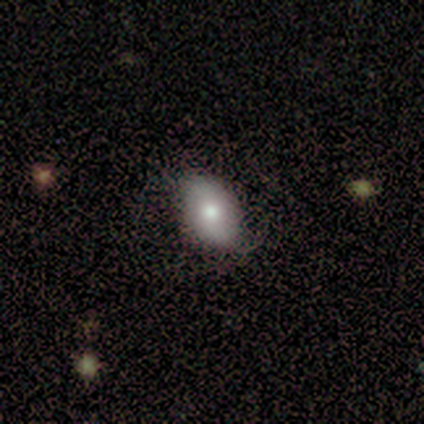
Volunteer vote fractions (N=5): smooth_or_featured: smooth (p=0.60) [alt: featured or disk p=0.20]
how_rounded: in between (p=1.00)
merging: none (p=0.50) [tied with: minor disturbance p=0.50]